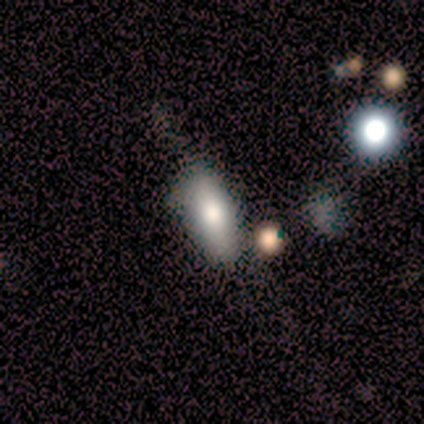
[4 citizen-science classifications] This appears to be a smooth galaxy with no disk features (100%) that is in between round and cigar-shaped (100%). Merging: none (75%).